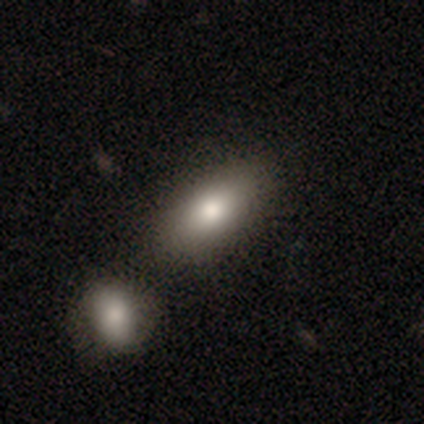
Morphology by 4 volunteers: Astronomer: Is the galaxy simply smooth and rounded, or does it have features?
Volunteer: smooth — 75%.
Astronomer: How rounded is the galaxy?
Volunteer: in between — 67%.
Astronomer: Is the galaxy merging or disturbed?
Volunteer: none — 75%.